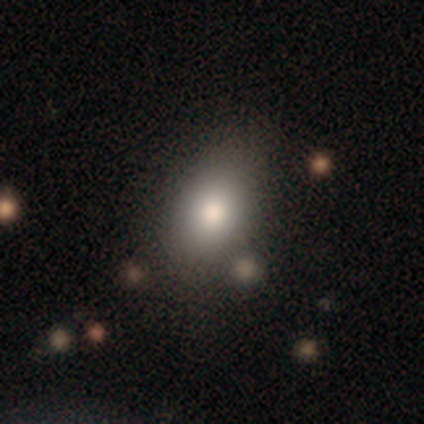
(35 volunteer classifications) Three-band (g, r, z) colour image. It shows a smooth galaxy with no disk features (74%) that is in between round and cigar-shaped (81%). Merging: none (72%).